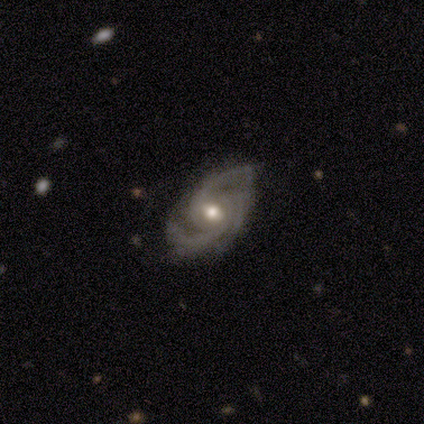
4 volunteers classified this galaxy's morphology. featured or disk 100%, smooth 0%, star or artifact 0%. Down the decision tree: edge-on disk — no (100%); bar — weak (100%); spiral arms — yes (100%); spiral arm count — 3 (100%); spiral winding — medium (100%); bulge size — moderate (75%); merging — none (50%, tied with minor disturbance).